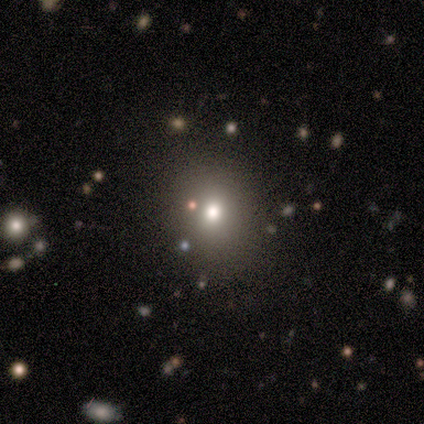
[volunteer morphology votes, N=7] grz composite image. It shows a star or artifact, not a galaxy (57%).